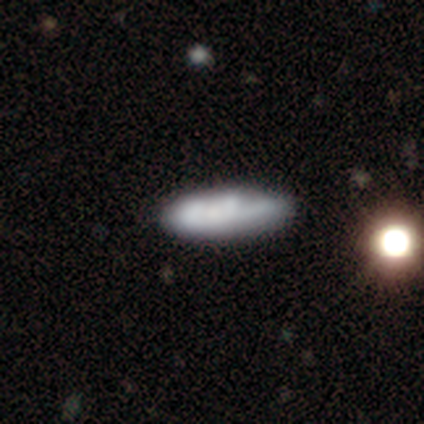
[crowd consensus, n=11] This appears to be a smooth galaxy with no disk features (73%) that is in between round and cigar-shaped (62%). Merging: none (90%).